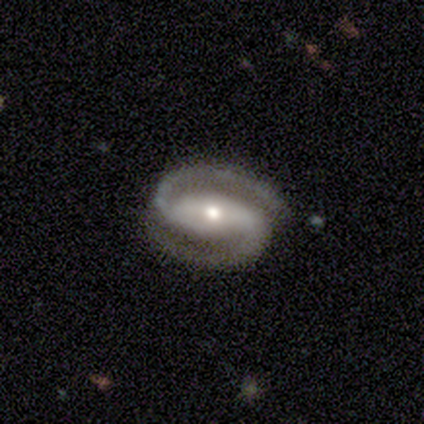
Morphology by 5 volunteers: This is clearly a featured or disk galaxy (100%). It is clearly not viewed edge-on (100%). Bar: likely strong (60%). Spiral arm pattern: clearly yes (100%). Spiral arm count: clearly 2 (100%). Spiral winding: clearly medium (80%). Central bulge: marginally moderate (40%, tied with small). Merging: clearly none (100%).